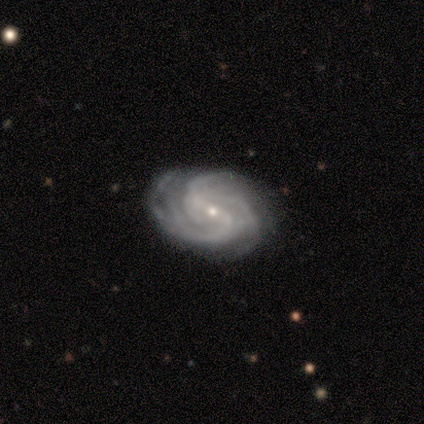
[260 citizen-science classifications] Morphology: type=featured or disk (89%); edge-on=no (96%); bar=weak (55%); spiral arms=yes (99%); winding=medium (51%); arm count=3 (50%); bulge=small (85%); merging=none (87%).